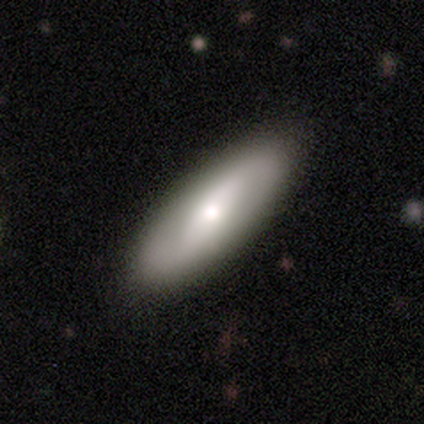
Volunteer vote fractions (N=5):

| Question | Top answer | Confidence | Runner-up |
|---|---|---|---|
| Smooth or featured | smooth | 60% | featured or disk (40%) |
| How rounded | cigar-shaped | 67% | in between (33%) |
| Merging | none | 100% | — |